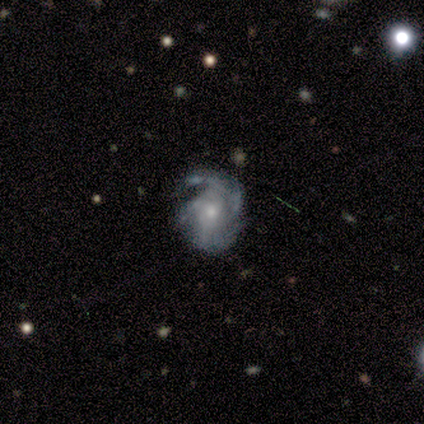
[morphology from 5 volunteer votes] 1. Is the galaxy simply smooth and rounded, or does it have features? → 100% featured or disk, 0% smooth, 0% star or artifact.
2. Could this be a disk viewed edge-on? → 100% no, 0% yes.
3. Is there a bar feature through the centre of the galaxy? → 60% no, 40% weak, 0% strong.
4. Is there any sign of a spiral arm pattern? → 100% yes, 0% no.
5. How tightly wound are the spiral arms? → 40% tight (tied), 40% medium (tied), 20% loose.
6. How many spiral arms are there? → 60% 3, 20% 4, 20% can't tell, 0% 1, 0% 2, 0% more than 4.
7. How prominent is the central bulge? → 60% small, 40% moderate, 0% dominant, 0% large, 0% none.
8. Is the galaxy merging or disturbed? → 80% none, 20% minor disturbance, 0% major disturbance, 0% merger.